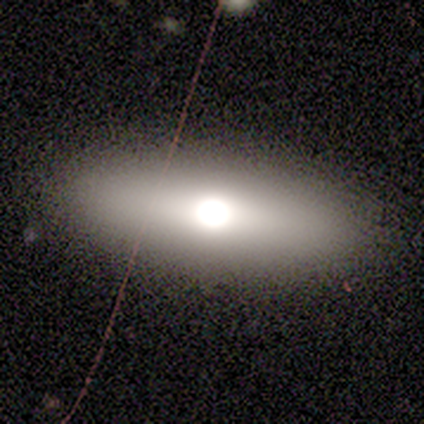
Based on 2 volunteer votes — smooth 100%, featured or disk 0%, star or artifact 0%. Down the decision tree: how rounded — in between (50%, tied with cigar-shaped); merging — none (100%).